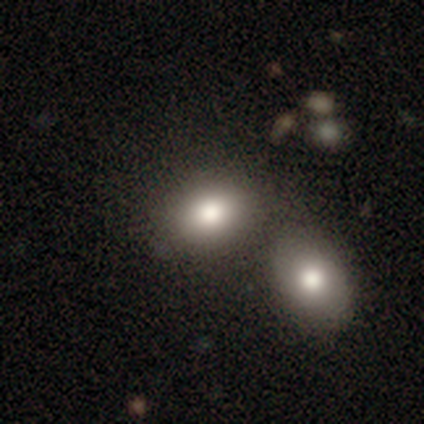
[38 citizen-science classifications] Smooth or featured: smooth — 82% (featured or disk — 16%)
How rounded: in between — 81% (round — 19%)
Merging: merger — 43% (none — 27%)